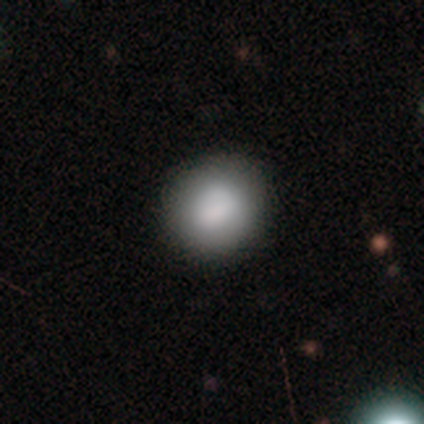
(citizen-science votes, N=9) Volunteers were most divided on "how rounded": round: 67%, in between: 33%, cigar-shaped: 0%. More confident: smooth or featured — smooth (67%); merging — none (62%).